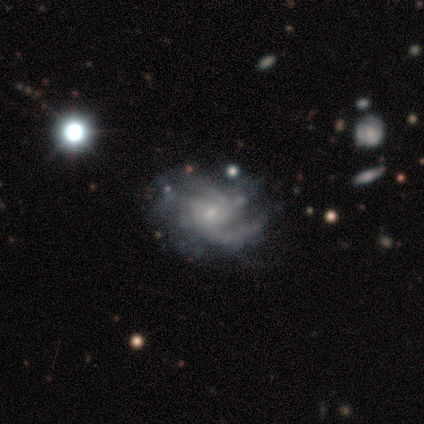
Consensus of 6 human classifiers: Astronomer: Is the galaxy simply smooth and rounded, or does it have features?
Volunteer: featured or disk — 100%.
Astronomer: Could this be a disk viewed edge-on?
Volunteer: no — 100%.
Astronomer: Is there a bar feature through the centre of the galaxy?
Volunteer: weak — 50%, tied with no at 50%.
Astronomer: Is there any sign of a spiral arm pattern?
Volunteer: yes — 100%.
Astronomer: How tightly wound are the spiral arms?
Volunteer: medium — 83%.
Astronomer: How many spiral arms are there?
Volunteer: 4 — 33%, tied with can't tell at 33%.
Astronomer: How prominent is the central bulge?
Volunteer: small — 67%.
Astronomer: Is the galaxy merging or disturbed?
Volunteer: none — 33%, tied with minor disturbance and major disturbance at 33%.